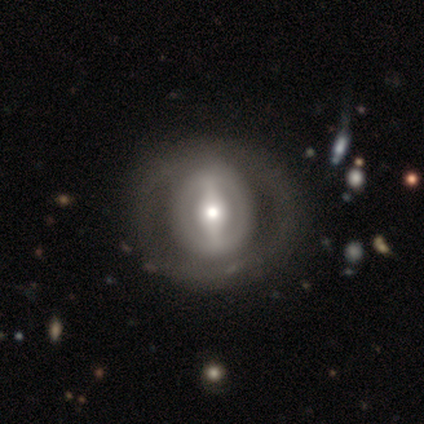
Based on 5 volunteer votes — smooth-or-featured: featured or disk: 100% | smooth: 0% | star or artifact: 0%
  disk-edge-on: no: 100% | yes: 0%
    bar: weak: 80% | strong: 20% | no: 0%
    has-spiral-arms: no: 60% | yes: 40%
    bulge-size: large: 40% (tied) | moderate: 40% (tied) | small: 20% | dominant: 0% | none: 0%
  merging: none: 60% | major disturbance: 20% | merger: 20% | minor disturbance: 0%